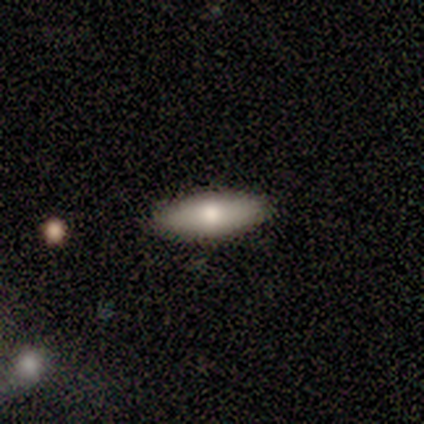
Volunteers were most divided on "smooth or featured": smooth: 67%, featured or disk: 33%, star or artifact: 0%. More confident: how rounded — in between (100%); merging — none (67%).